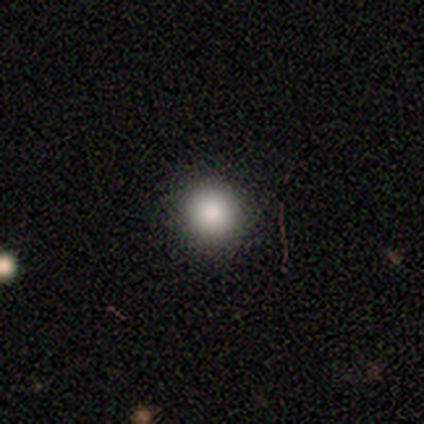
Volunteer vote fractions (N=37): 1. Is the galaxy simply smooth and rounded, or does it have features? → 95% smooth, 5% star or artifact, 0% featured or disk.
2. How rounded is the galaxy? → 91% round, 9% in between, 0% cigar-shaped.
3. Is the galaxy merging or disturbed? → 97% none, 3% minor disturbance, 0% major disturbance, 0% merger.